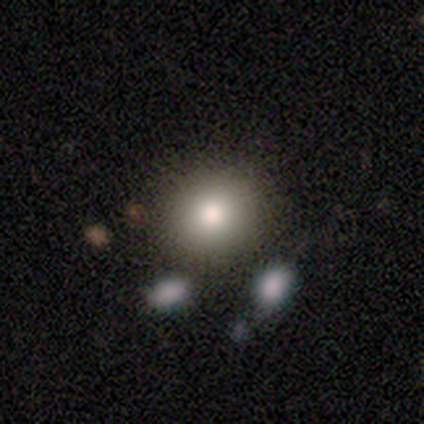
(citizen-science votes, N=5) Volunteers were most divided on "merging": none: 60%, minor disturbance: 20%, merger: 20%, major disturbance: 0%. More confident: smooth or featured — smooth (100%); how rounded — round (80%).